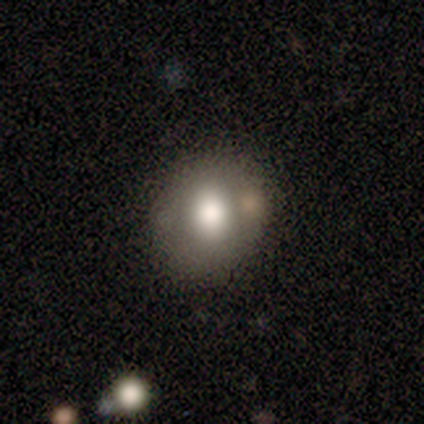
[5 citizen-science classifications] Smooth or featured: smooth — 60% (featured or disk — 20%)
How rounded: round — 67% (in between — 33%)
Merging: none — 100%